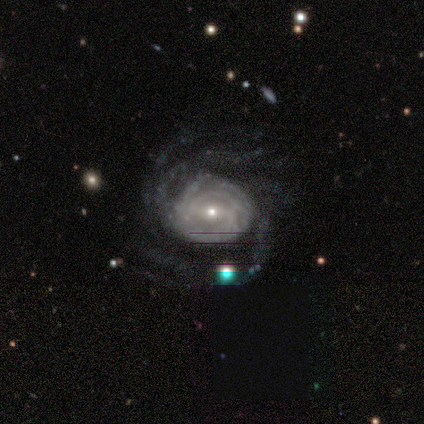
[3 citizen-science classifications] smooth_or_featured: featured or disk (p=0.67) [alt: smooth p=0.33]
disk_edge_on: no (p=1.00)
bar: weak (p=1.00)
has_spiral_arms: yes (p=1.00)
spiral_winding: tight (p=0.50) [tied with: medium p=0.50]
spiral_arm_count: 4 (p=0.50) [tied with: more than 4 p=0.50]
bulge_size: large (p=0.50) [tied with: small p=0.50]
merging: none (p=0.67) [alt: major disturbance p=0.33]